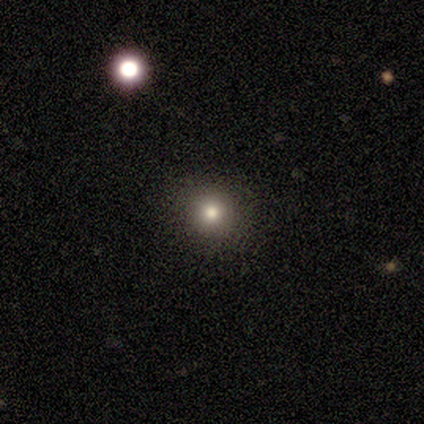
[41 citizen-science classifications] Volunteers were most divided on "smooth or featured": smooth: 63%, star or artifact: 22%, featured or disk: 15%. More confident: how rounded — round (96%); merging — none (94%).